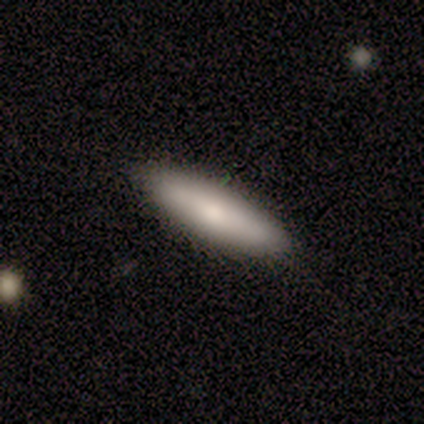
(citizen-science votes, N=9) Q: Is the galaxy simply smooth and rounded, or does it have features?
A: smooth — 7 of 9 (78%).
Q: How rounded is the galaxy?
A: cigar-shaped — 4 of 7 (57%).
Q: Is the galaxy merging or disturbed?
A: none — 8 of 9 (89%).